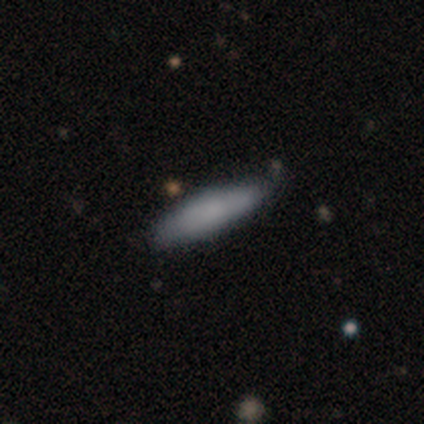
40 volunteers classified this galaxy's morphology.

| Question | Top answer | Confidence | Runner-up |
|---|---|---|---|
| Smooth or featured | smooth | 68% | featured or disk (28%) |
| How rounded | cigar-shaped | 70% | in between (30%) |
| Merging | none | 55% | minor disturbance (11%) |